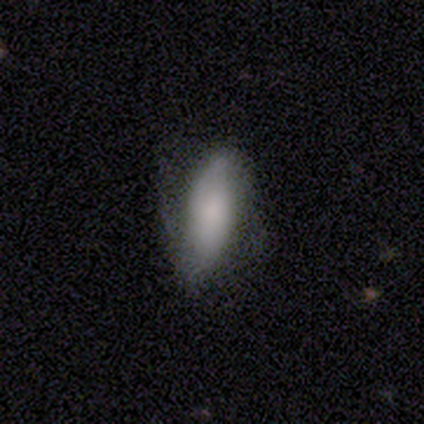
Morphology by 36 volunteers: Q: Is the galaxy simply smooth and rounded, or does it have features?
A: smooth — 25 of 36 (69%).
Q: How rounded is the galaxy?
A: in between — 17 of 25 (68%).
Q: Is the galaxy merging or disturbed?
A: none — 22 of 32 (69%).